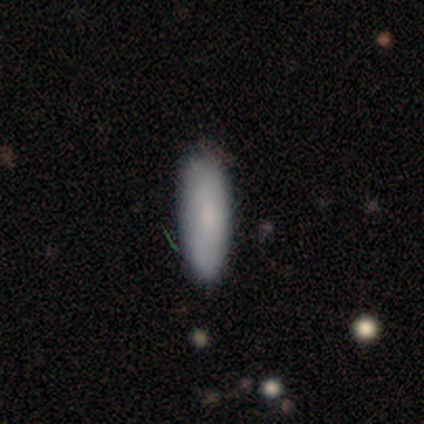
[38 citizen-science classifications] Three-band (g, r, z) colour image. It shows a smooth galaxy with no disk features (87%) that is cigar-shaped (52%). Merging: none (86%).